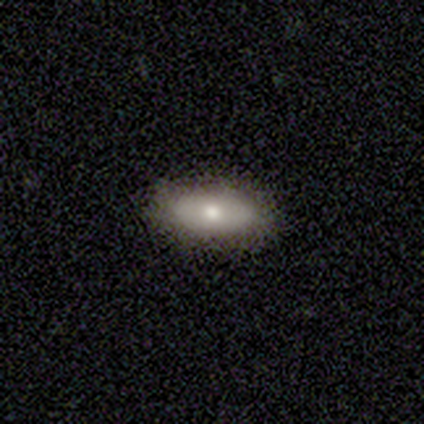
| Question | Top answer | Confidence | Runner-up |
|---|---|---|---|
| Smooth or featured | smooth | 80% | featured or disk (20%) |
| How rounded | in between | 75% | cigar-shaped (25%) |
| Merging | none | 100% | — |